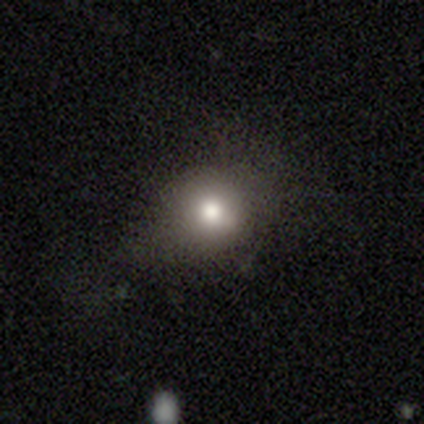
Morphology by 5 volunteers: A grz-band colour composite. It shows a smooth galaxy with no disk features (100%) that is round (80%). Merging: none (100%).